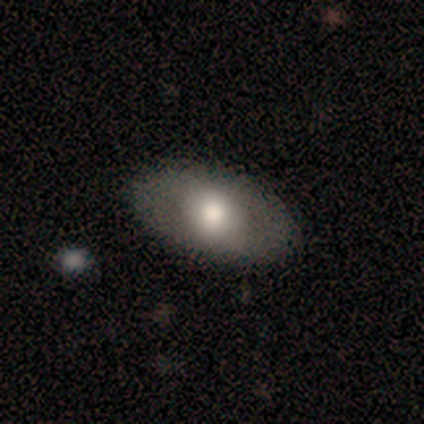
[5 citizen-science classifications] Volunteers were most divided on "bulge size" (2-way tie): large: 50%, moderate: 50%, dominant: 0%, small: 0%, none: 0%. More confident: bar — no (100%); spiral arms — no (100%); merging — none (100%); edge-on disk — no (67%); smooth or featured — featured or disk (60%).